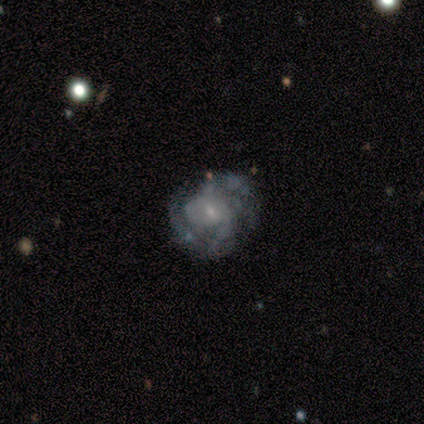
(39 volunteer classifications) A featured or disk galaxy (87%) with no bar (56%), tight (42%, tied with medium) spiral arms (97%) and a small central bulge (81%).

Vote fractions:
- Smooth or featured? featured or disk: 87% / star or artifact: 10% / smooth: 3%
- Edge-on disk? no: 94% / yes: 6%
- Bar? no: 56% / weak: 44% / strong: 0%
- Spiral arms? yes: 97% / no: 3%
- Spiral winding? tight: 42% (tied) / medium: 42% (tied) / loose: 16%
- Spiral arm count? can't tell: 35% / 3: 29% / 2: 23% / 1: 6% / 4: 6% / more than 4: 0%
- Bulge size? small: 81% / moderate: 19% / dominant: 0% / large: 0% / none: 0%
- Merging? none: 71% / minor disturbance: 20% / major disturbance: 9% / merger: 0%